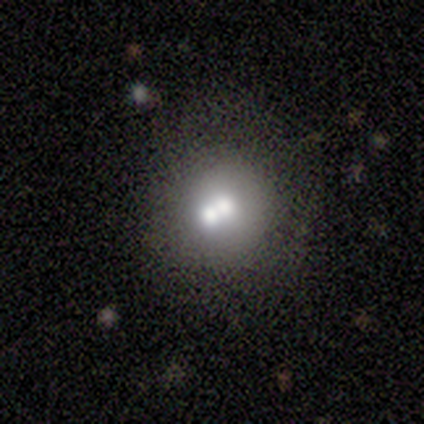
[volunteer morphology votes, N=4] Smooth or featured? smooth (50%, tied with featured or disk)
How rounded? round (100%)
Merging? none (50%)